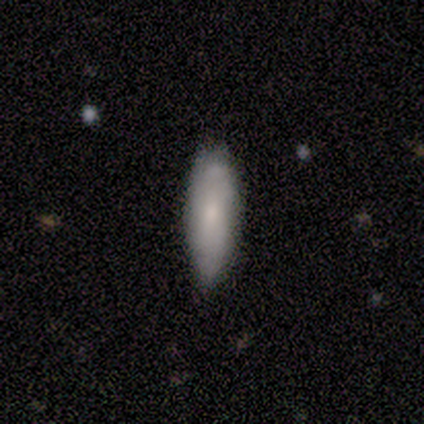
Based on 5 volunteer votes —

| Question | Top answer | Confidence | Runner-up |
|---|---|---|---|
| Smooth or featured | smooth | 100% | — |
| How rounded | cigar-shaped | 80% | in between (20%) |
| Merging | none | 80% | minor disturbance (20%) |